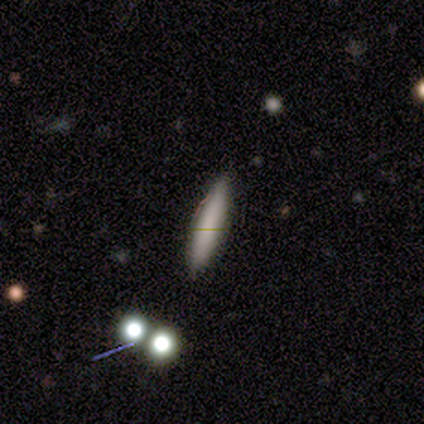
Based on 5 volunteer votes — This appears to be a smooth galaxy with no disk features (100%) that is cigar-shaped (100%). Merging: none (80%).